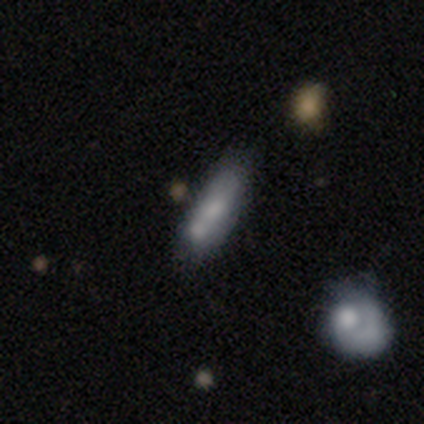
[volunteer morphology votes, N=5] A smooth galaxy with no disk features (100%) that is cigar-shaped (60%). Merging: none (60%).